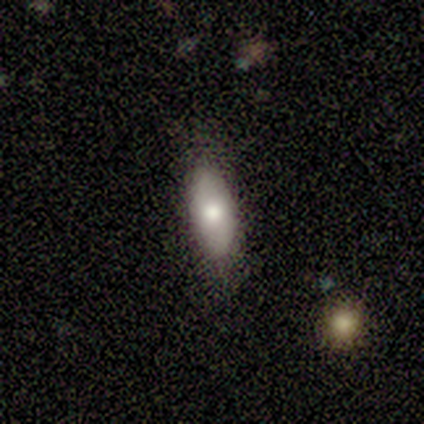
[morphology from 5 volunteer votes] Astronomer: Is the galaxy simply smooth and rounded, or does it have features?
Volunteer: smooth — 60% (runner-up: featured or disk, 40%).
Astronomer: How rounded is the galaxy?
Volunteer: in between — 100%.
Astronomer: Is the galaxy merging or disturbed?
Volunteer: none — 100%.